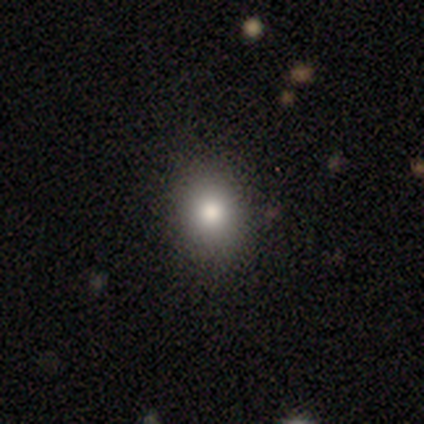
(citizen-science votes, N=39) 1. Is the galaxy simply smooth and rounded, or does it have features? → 79% smooth, 10% featured or disk, 10% star or artifact.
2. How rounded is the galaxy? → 55% round, 42% in between, 3% cigar-shaped.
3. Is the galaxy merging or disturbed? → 89% none, 6% minor disturbance, 3% major disturbance, 3% merger.